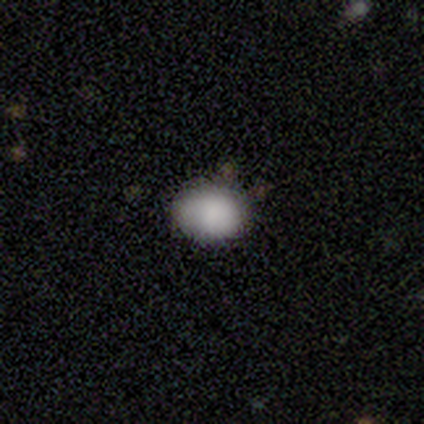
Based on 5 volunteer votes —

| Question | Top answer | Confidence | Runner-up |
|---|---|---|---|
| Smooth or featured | smooth | 100% | — |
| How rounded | in between | 80% | round (20%) |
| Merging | none | 80% | merger (20%) |